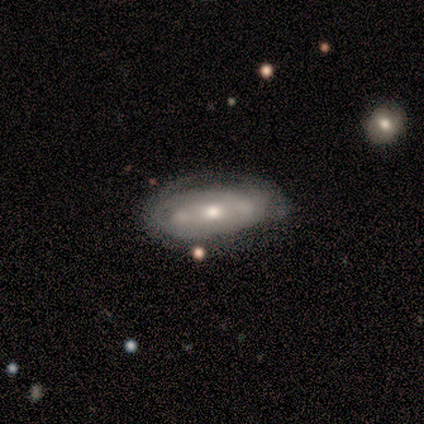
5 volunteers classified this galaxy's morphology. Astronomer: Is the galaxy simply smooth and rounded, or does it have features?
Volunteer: featured or disk — 80%.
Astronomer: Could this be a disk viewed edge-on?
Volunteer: no — 100%.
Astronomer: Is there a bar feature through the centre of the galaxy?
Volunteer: weak — 50%, tied with no at 50%.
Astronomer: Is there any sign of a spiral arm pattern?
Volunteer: no — 75%.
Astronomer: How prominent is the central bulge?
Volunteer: moderate — 50%, tied with small at 50%.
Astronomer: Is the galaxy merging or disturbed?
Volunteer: minor disturbance — 60%.